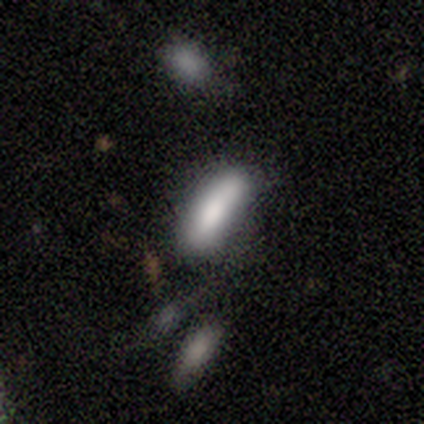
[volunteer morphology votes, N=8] This appears to be a smooth galaxy with no disk features (75%) that is in between round and cigar-shaped (50%, tied with cigar-shaped). Merging: none (62%).